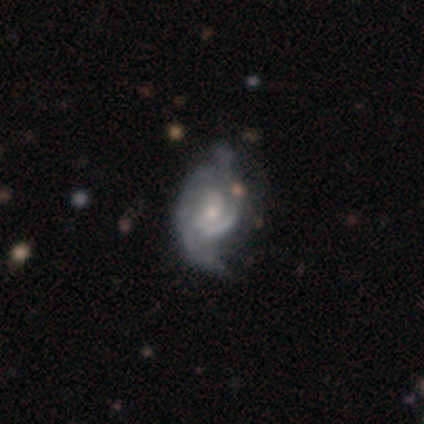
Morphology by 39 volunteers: Q: Smooth or featured?
A: featured or disk (95%); runner-up: star or artifact (5%)
Q: Edge-on disk?
A: no (97%); runner-up: yes (3%)
Q: Bar?
A: no (78%); runner-up: weak (19%)
Q: Spiral arms?
A: yes (97%); runner-up: no (3%)
Q: Spiral winding?
A: medium (49%); runner-up: tight (43%)
Q: Spiral arm count?
A: 2 (60%); runner-up: can't tell (20%)
Q: Bulge size?
A: small (58%); runner-up: moderate (39%)
Q: Merging?
A: none (32%); runner-up: minor disturbance (24%)